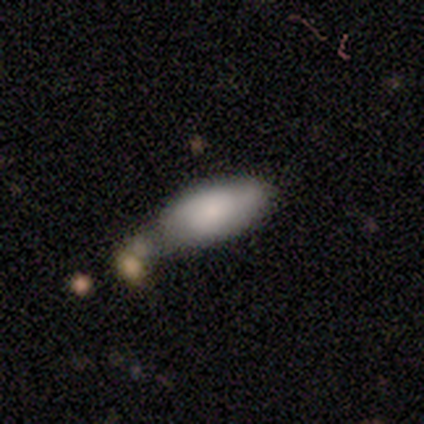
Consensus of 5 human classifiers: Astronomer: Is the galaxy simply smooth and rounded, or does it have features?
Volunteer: smooth — 80%.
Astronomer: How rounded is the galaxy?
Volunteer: in between — 75%.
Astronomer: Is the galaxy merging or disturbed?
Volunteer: none — 60%.